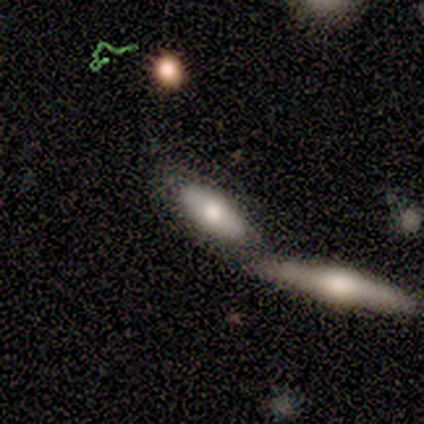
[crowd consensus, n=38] Volunteers were most divided on "merging": merger: 50%, none: 44%, minor disturbance: 3%, major disturbance: 3%. More confident: smooth or featured — smooth (63%); how rounded — in between (62%).